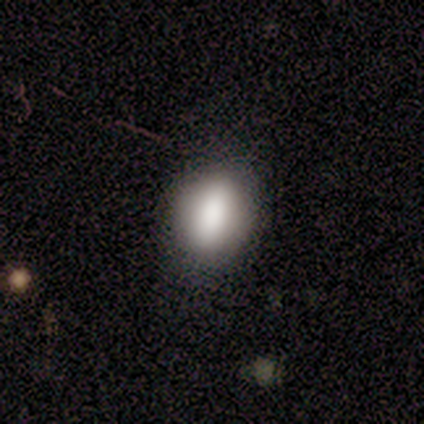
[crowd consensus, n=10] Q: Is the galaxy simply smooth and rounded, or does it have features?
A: smooth — 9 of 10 (90%).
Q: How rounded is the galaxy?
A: in between — 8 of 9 (89%).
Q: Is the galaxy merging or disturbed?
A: none — 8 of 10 (80%).